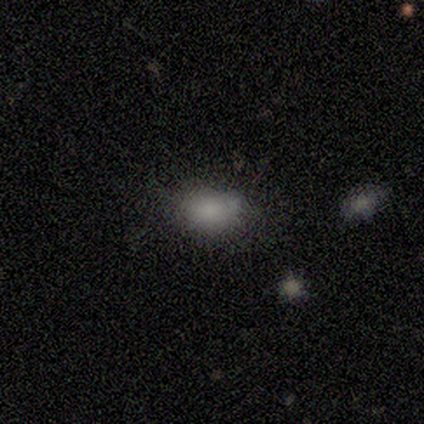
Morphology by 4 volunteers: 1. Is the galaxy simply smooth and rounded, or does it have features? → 100% smooth, 0% featured or disk, 0% star or artifact.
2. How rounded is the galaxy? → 75% in between, 25% round, 0% cigar-shaped.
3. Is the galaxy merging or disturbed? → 75% minor disturbance, 25% none, 0% major disturbance, 0% merger.